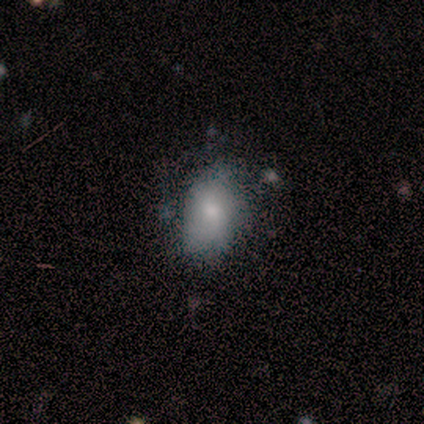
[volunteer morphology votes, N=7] This appears to be a smooth galaxy with no disk features (100%) that is in between round and cigar-shaped (100%). Merging: none (57%).